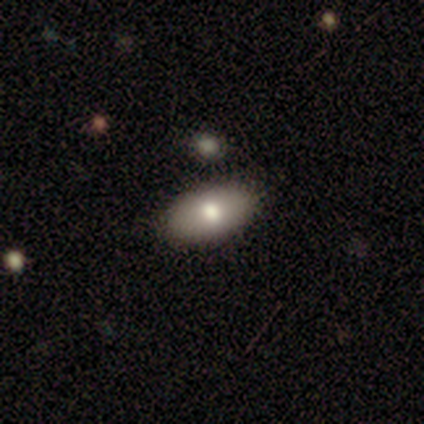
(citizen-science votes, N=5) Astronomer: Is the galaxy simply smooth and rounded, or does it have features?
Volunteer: smooth — 60%.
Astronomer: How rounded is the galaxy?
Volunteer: in between — 100%.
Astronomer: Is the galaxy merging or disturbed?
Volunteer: none — 75%.